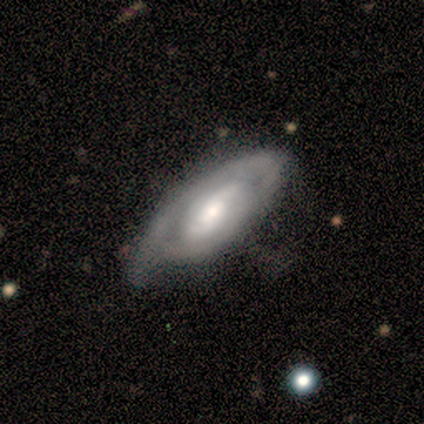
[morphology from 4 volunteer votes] Smooth or featured?
  - featured or disk: 100% *
  - smooth: 0%
  - star or artifact: 0%
Edge-on disk?
  - no: 100% *
  - yes: 0%
Bar?
  - no: 50% *
  - strong: 25%
  - weak: 25%
Spiral arms?
  - yes: 50% * (tied)
  - no: 50% * (tied)
Spiral winding?
  - tight: 50% * (tied)
  - medium: 50% * (tied)
  - loose: 0%
Spiral arm count?
  - 2: 100% *
  - 1: 0%
  - 3: 0%
  - 4: 0%
  - more than 4: 0%
  - can't tell: 0%
Bulge size?
  - large: 75% *
  - moderate: 25%
  - dominant: 0%
  - small: 0%
  - none: 0%
Merging?
  - minor disturbance: 50% *
  - none: 25%
  - major disturbance: 25%
  - merger: 0%